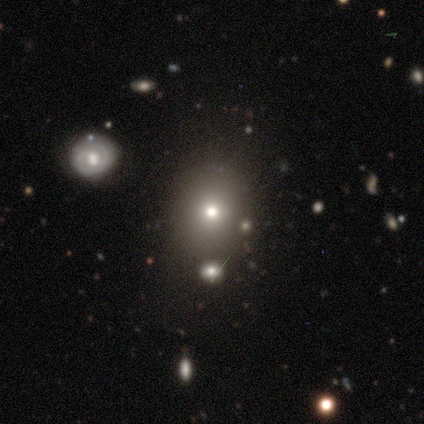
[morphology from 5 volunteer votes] smooth-or-featured: smooth: 40% (tied) | star or artifact: 40% (tied) | featured or disk: 20%
  how-rounded: round: 100% | in between: 0% | cigar-shaped: 0%
  merging: none: 100% | minor disturbance: 0% | major disturbance: 0% | merger: 0%